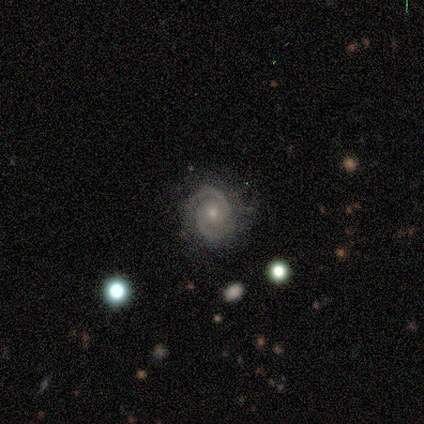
Smooth or featured? featured or disk (100%)
Edge-on disk? no (100%)
Bar? no (90%)
Spiral arms? yes (100%)
Spiral winding? tight (70%)
Spiral arm count? 2 (90%)
Bulge size? small (70%)
Merging? none (70%)